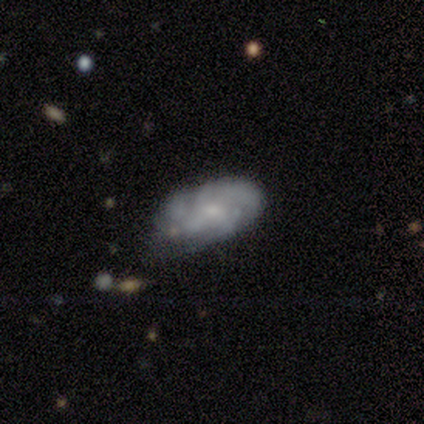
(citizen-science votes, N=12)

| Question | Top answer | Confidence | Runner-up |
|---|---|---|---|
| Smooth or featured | featured or disk | 83% | smooth (17%) |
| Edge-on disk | no | 80% | yes (20%) |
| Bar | no | 75% | weak (25%) |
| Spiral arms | yes | 88% | no (12%) |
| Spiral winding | tight | 43% | tied: medium (43%) |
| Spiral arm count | can't tell | 57% | 3 (29%) |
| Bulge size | small | 62% | none (25%) |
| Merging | none | 50% | minor disturbance (25%) |